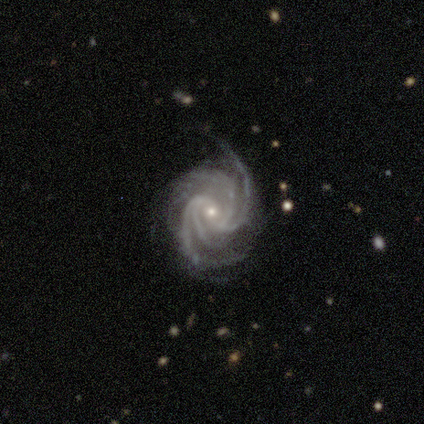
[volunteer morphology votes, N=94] featured or disk 97%, star or artifact 2%, smooth 1%. Down the decision tree: edge-on disk — no (100%); bar — no (47%); spiral arms — yes (100%); spiral arm count — 4 (71%); spiral winding — tight (64%); bulge size — small (78%); merging — none (75%).